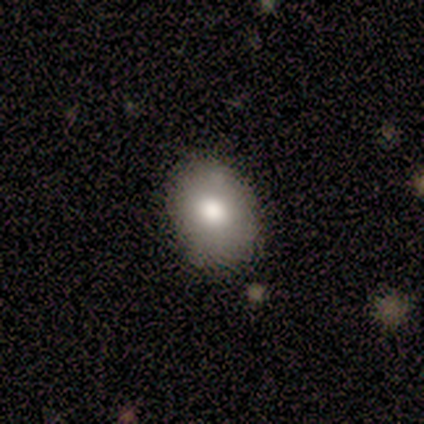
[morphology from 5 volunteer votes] smooth_or_featured: smooth (p=0.80) [alt: star or artifact p=0.20]
how_rounded: in between (p=0.75) [alt: round p=0.25]
merging: none (p=1.00)